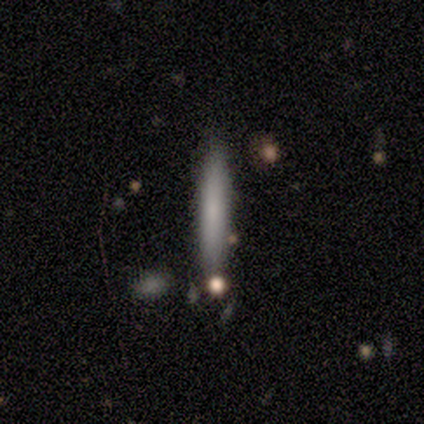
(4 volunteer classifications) smooth_or_featured: smooth (p=0.75) [alt: featured or disk p=0.25]
how_rounded: cigar-shaped (p=0.67) [alt: in between p=0.33]
merging: none (p=1.00)